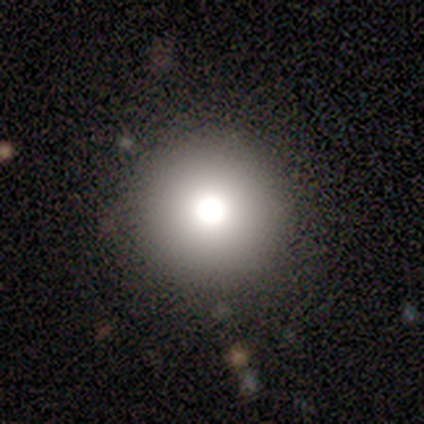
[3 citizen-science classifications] Overall: smooth (100%). How rounded: round (100%). Merging: none (100%).